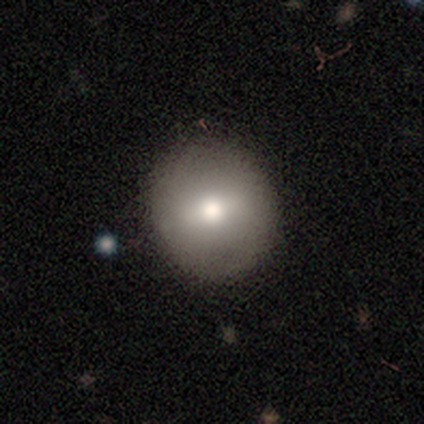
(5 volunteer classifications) smooth-or-featured: smooth: 80% | star or artifact: 20% | featured or disk: 0%
  how-rounded: round: 100% | in between: 0% | cigar-shaped: 0%
  merging: none: 100% | minor disturbance: 0% | major disturbance: 0% | merger: 0%